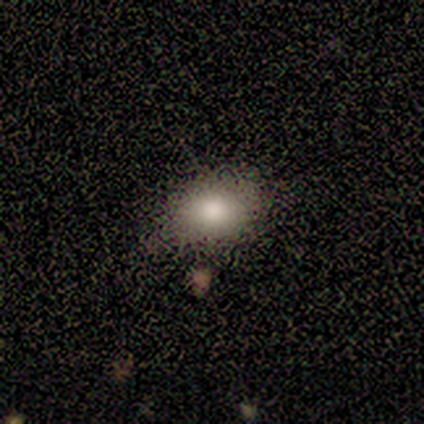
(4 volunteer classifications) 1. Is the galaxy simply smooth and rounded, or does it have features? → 75% smooth, 25% featured or disk, 0% star or artifact.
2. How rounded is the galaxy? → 67% round, 33% in between, 0% cigar-shaped.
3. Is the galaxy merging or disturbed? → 75% none, 25% minor disturbance, 0% major disturbance, 0% merger.